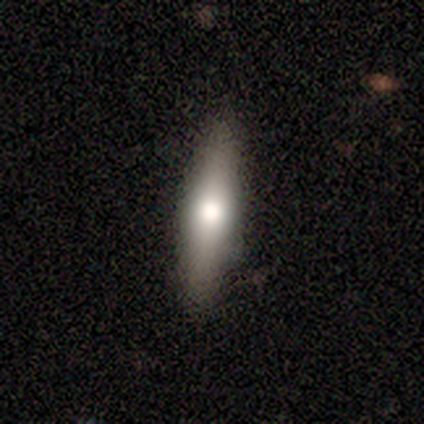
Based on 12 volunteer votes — Morphology: type=smooth (67%); roundness=cigar-shaped (75%); merging=none (92%).